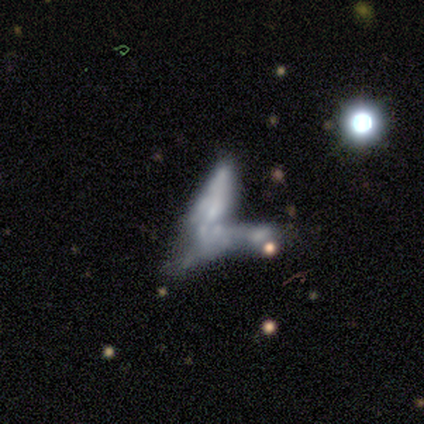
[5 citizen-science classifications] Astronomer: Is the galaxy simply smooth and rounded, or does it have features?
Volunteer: featured or disk — 40%, tied with star or artifact at 40%.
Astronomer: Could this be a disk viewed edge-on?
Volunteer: no — 100%.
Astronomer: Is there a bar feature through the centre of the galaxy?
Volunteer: weak — 50%, tied with no at 50%.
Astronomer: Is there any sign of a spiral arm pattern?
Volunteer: yes — 50%, tied with no at 50%.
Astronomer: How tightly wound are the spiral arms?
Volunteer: loose — 100%.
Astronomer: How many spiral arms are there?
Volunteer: can't tell — 100%.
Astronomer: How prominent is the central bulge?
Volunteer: small — 50%, tied with none at 50%.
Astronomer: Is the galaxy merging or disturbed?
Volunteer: merger — 100%.